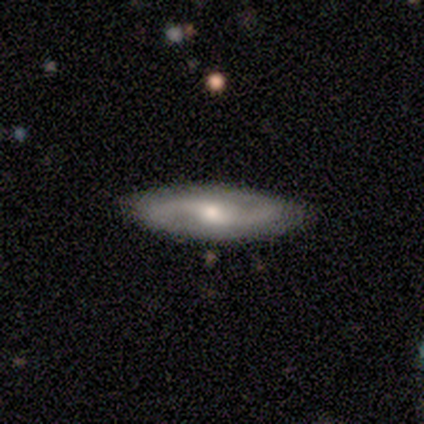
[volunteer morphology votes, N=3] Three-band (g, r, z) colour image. It shows a featured or disk galaxy (67%) with a strong bar (50%, tied with weak), 2 (100%) medium (50%, tied with loose) spiral arms (100%) and a large central bulge (50%, tied with moderate). Merging: none (100%).